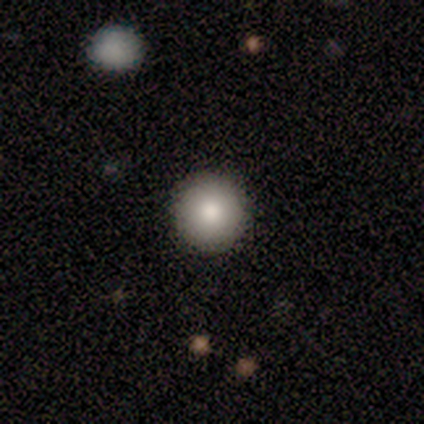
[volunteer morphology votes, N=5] Smooth or featured?
  - smooth: 80% *
  - star or artifact: 20%
  - featured or disk: 0%
How rounded?
  - round: 100% *
  - in between: 0%
  - cigar-shaped: 0%
Merging?
  - none: 100% *
  - minor disturbance: 0%
  - major disturbance: 0%
  - merger: 0%